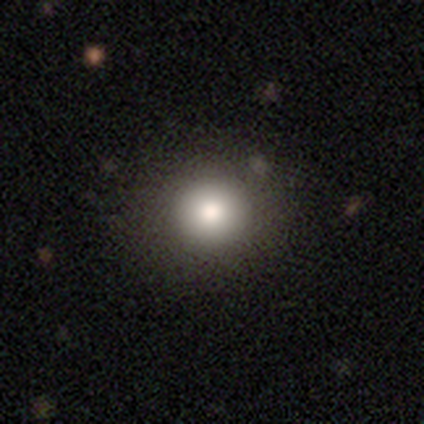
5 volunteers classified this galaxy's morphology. This is likely a smooth galaxy (60%). How rounded: clearly round (100%). Merging: clearly none (100%).